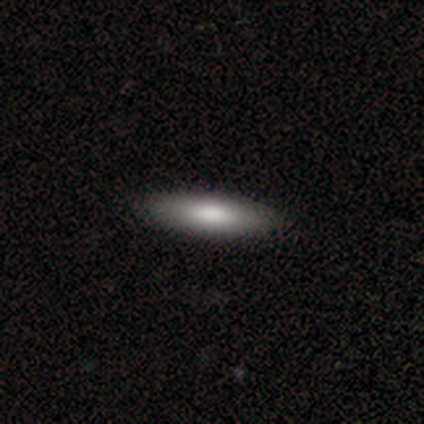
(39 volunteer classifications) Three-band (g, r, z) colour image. It shows a smooth galaxy with no disk features (74%) that is cigar-shaped (72%). Merging: none (95%).